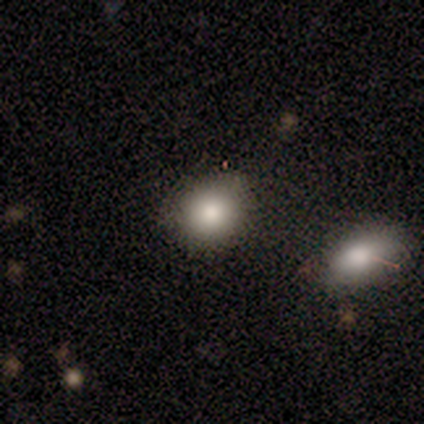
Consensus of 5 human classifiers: This is clearly a smooth galaxy (80%). How rounded: likely round (75%). Merging: likely none (75%).